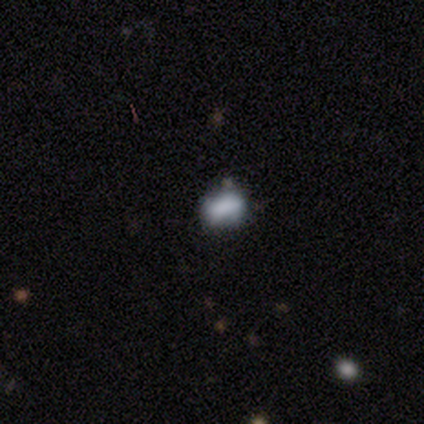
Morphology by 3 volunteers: Volunteers were most divided on "how rounded" (2-way tie): round: 50%, in between: 50%, cigar-shaped: 0%; "merging" (3-way tie): none: 33%, minor disturbance: 33%, merger: 33%, major disturbance: 0%. More confident: smooth or featured — smooth (67%).